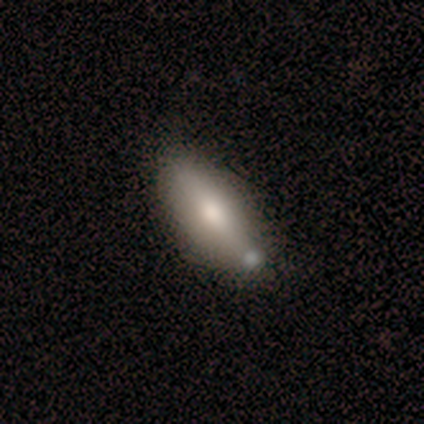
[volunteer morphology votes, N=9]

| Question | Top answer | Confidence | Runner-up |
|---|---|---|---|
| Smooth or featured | smooth | 67% | featured or disk (22%) |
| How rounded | in between | 67% | cigar-shaped (33%) |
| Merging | none | 62% | merger (25%) |